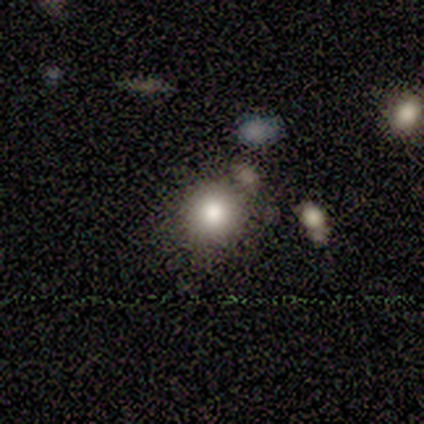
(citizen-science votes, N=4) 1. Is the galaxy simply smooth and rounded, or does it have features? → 100% smooth, 0% featured or disk, 0% star or artifact.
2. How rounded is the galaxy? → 50% round (tied), 50% in between (tied), 0% cigar-shaped.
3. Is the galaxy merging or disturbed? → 50% none (tied), 50% minor disturbance (tied), 0% major disturbance, 0% merger.